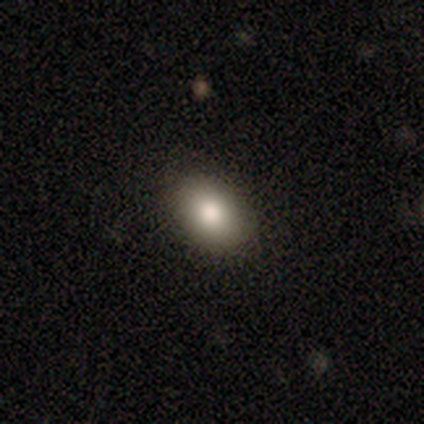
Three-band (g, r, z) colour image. It shows a smooth galaxy with no disk features (67%) that is in between round and cigar-shaped (100%). Merging: none (100%).